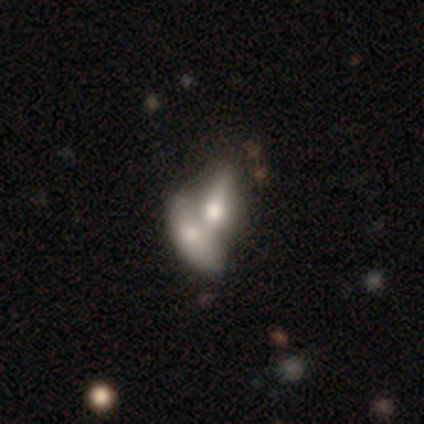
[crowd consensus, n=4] Smooth or featured? smooth (50%)
How rounded? in between (100%)
Merging? merger (67%)